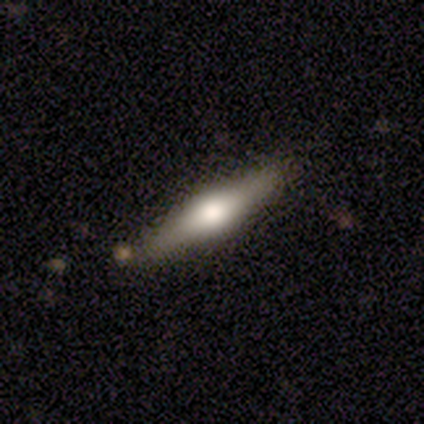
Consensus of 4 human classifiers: Overall: featured or disk (100%). Edge-on disk: yes (100%). Edge-on bulge: rounded (100%). Merging: none (75%).